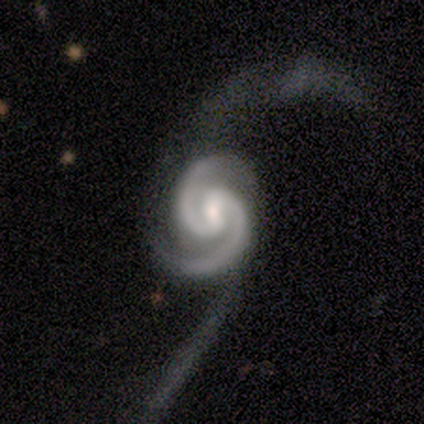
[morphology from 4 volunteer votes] Overall: featured or disk (100%). Edge-on disk: no (100%). Bar: weak (100%). Spiral arms: yes (100%). Spiral arm count: 2 (100%). Spiral winding: medium (75%). Bulge size: small (75%). Merging: none (50%, tied with major disturbance).